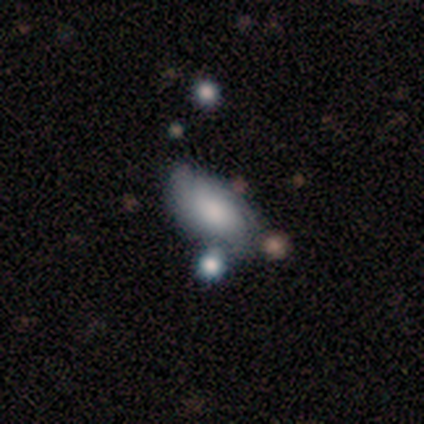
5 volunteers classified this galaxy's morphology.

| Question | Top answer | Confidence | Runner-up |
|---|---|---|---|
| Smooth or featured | smooth | 100% | — |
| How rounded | in between | 100% | — |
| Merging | none | 80% | minor disturbance (20%) |